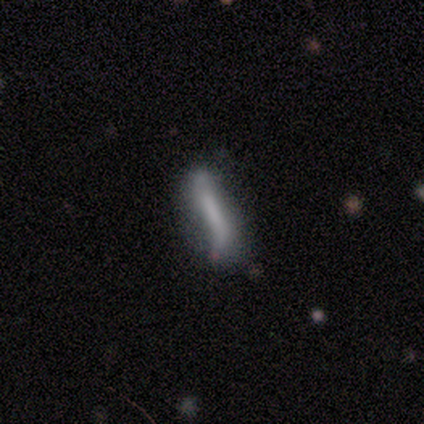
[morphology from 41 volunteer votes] type=featured or disk (59%); edge-on=no (75%); bar=strong (44%); spiral arms=yes (56%); winding=loose (80%); arm count=2 (90%); bulge=none (56%); merging=none (50%).